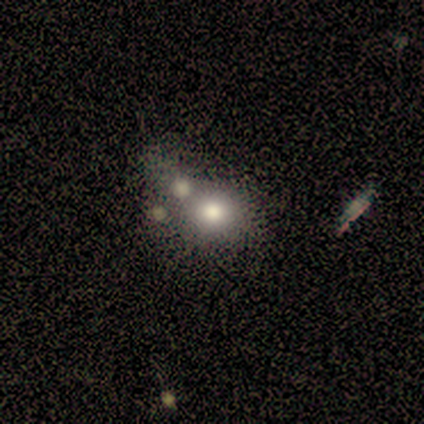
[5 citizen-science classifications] This is clearly a smooth galaxy (80%). How rounded: clearly round (100%). Merging: likely none (60%).